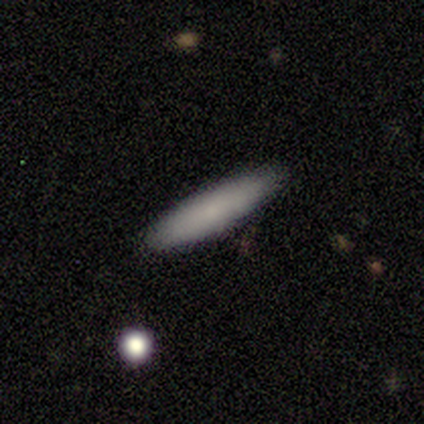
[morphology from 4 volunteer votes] Smooth or featured? 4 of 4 (100%) said smooth. How rounded? 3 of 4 (75%) said cigar-shaped. Merging? 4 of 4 (100%) said none.